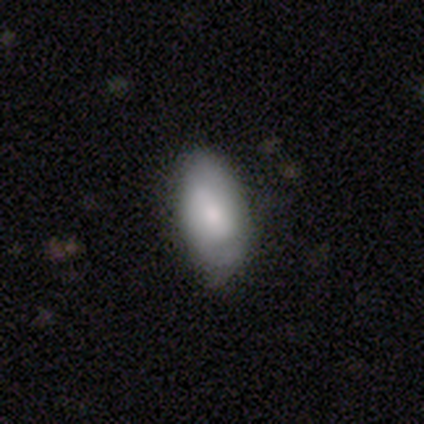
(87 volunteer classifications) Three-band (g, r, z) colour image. It shows a smooth galaxy with no disk features (69%) that is in between round and cigar-shaped (90%). Merging: none (65%).